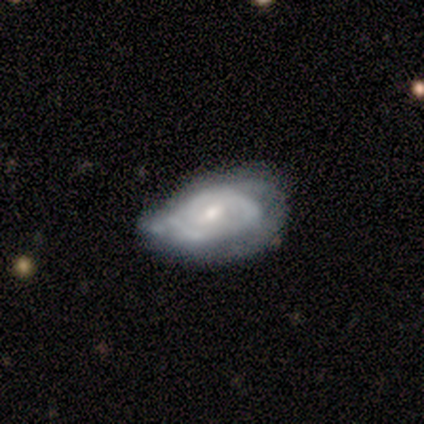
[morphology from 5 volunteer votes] Q: Smooth or featured?
A: featured or disk (80%); runner-up: smooth (20%)
Q: Edge-on disk?
A: no (100%)
Q: Bar?
A: no (75%); runner-up: weak (25%)
Q: Spiral arms?
A: yes (100%)
Q: Spiral winding?
A: tight (50%); tied with: medium (50%)
Q: Spiral arm count?
A: can't tell (50%); runner-up: 2 (25%)
Q: Bulge size?
A: small (75%); runner-up: moderate (25%)
Q: Merging?
A: none (60%); runner-up: minor disturbance (20%)